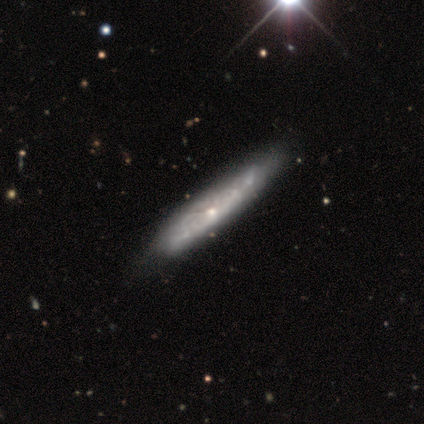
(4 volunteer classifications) This appears to be a featured or disk galaxy (75%) with no bar (100%), tight (100%) spiral arms (50%, tied with no) and a small central bulge (100%). Merging: none (75%).